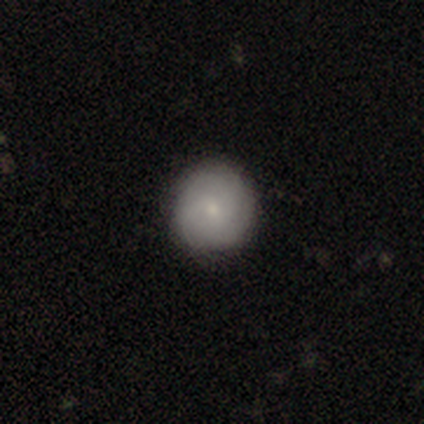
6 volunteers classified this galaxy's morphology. Smooth or featured?
  - smooth: 67% *
  - featured or disk: 33%
  - star or artifact: 0%
How rounded?
  - round: 75% *
  - in between: 25%
  - cigar-shaped: 0%
Merging?
  - none: 100% *
  - minor disturbance: 0%
  - major disturbance: 0%
  - merger: 0%